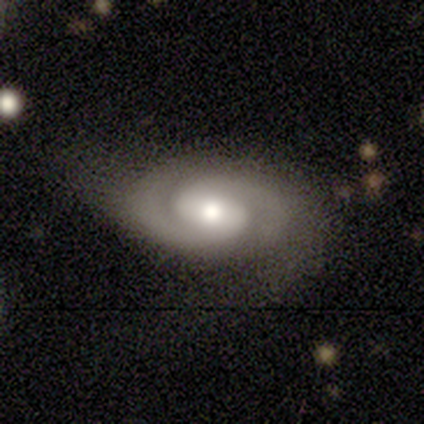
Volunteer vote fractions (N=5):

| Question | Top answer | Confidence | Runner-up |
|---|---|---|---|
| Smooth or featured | featured or disk | 80% | smooth (20%) |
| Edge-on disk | no | 100% | — |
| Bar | no | 100% | — |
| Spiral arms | yes | 100% | — |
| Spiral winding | medium | 50% | tight (25%) |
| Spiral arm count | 2 | 100% | — |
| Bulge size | moderate | 50% | large (25%) |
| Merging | none | 60% | major disturbance (20%) |